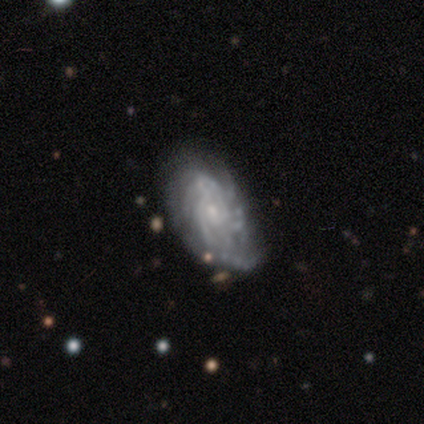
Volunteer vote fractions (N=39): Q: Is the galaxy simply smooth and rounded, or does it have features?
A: featured or disk — 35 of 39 (90%).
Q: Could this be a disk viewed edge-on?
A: no — 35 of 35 (100%).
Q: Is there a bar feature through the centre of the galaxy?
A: no — 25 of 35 (71%).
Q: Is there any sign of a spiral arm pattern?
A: yes — 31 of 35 (89%).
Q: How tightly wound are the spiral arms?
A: tight — 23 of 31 (74%).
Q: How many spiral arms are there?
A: can't tell — 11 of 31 (35%).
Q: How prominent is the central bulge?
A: small — 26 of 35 (74%).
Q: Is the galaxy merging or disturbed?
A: none — 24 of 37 (65%).